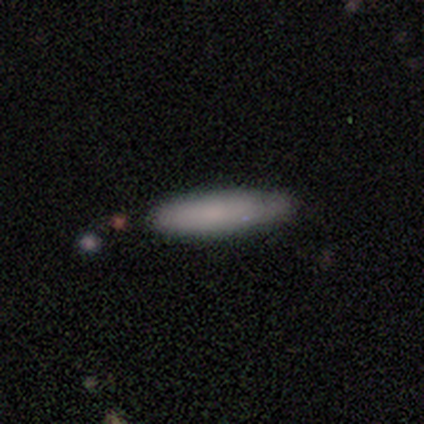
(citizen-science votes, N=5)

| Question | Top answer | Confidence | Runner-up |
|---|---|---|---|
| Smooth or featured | smooth | 80% | featured or disk (20%) |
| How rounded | cigar-shaped | 50% | round (25%) |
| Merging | none | 80% | merger (20%) |